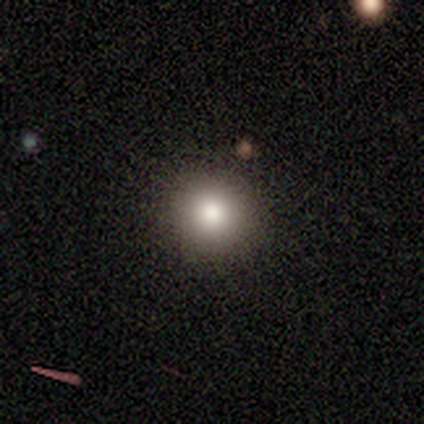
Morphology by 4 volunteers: Smooth or featured: smooth — 75% (star or artifact — 25%)
How rounded: round — 100%
Merging: none — 100%